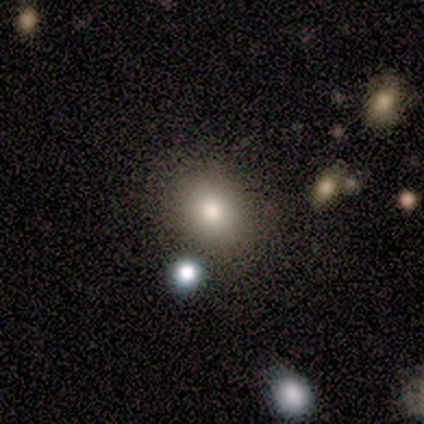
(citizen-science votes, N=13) Morphology: type=smooth (92%); roundness=round (67%); merging=none (85%).